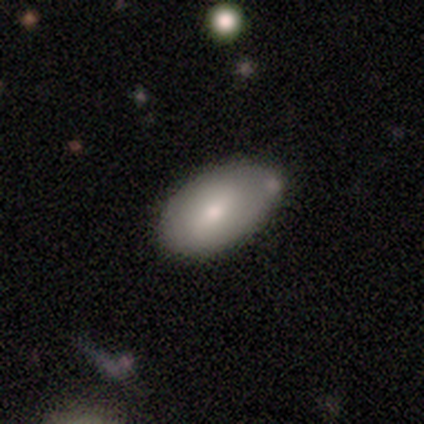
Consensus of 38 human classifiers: Overall: smooth (66%; featured or disk 32%). How rounded: in between (88%). Merging: none (73%).